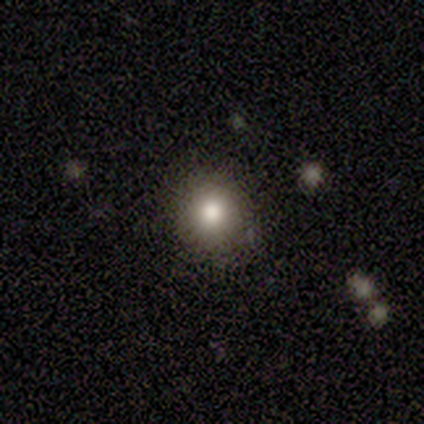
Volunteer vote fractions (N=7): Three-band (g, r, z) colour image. It shows a smooth galaxy with no disk features (100%) that is round (100%). Merging: none (100%).